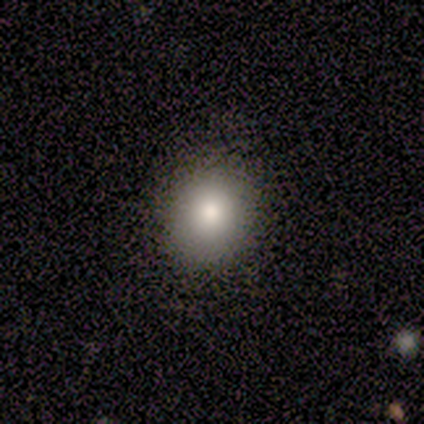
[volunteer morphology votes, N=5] Q: Smooth or featured?
A: smooth (100%)
Q: How rounded?
A: round (80%); runner-up: in between (20%)
Q: Merging?
A: none (80%); runner-up: minor disturbance (20%)